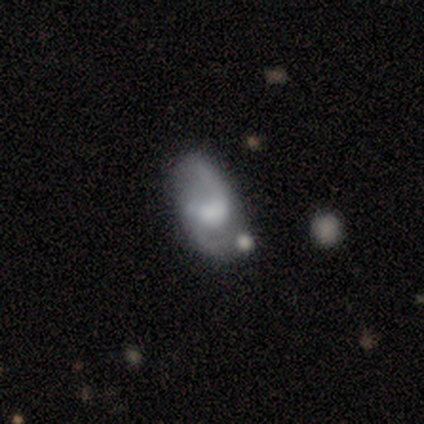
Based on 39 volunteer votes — smooth-or-featured: featured or disk: 74% | smooth: 21% | star or artifact: 5%
  disk-edge-on: no: 100% | yes: 0%
    bar: weak: 59% | no: 31% | strong: 10%
    has-spiral-arms: yes: 86% | no: 14%
      spiral-winding: loose: 60% | medium: 40% | tight: 0%
      spiral-arm-count: 2: 88% | 1: 8% | 3: 4% | 4: 0% | more than 4: 0% | can't tell: 0%
    bulge-size: moderate: 34% | large: 24% | small: 24% | none: 17% | dominant: 0%
  merging: none: 59% | minor disturbance: 19% | merger: 14% | major disturbance: 8%